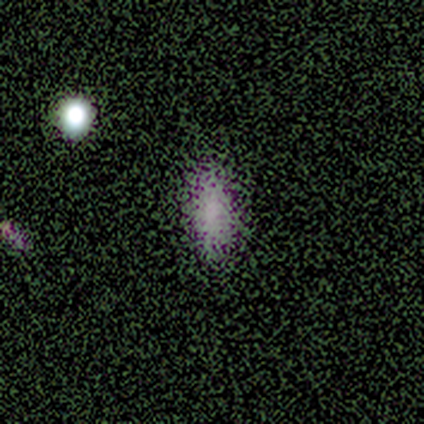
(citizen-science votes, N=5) Volunteers were most divided on "smooth or featured": smooth: 60%, featured or disk: 20%, star or artifact: 20%. More confident: how rounded — in between (100%); merging — none (75%).